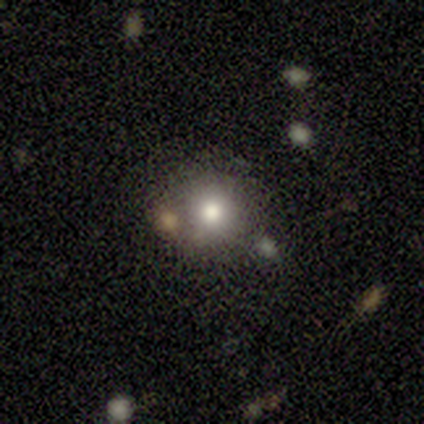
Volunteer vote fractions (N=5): This is likely a smooth galaxy (60%). How rounded: clearly round (100%). Merging: clearly none (100%).